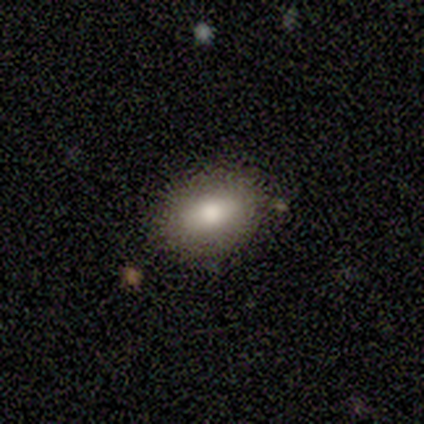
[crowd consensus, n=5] This is clearly a smooth galaxy (80%). How rounded: clearly in between (100%). Merging: clearly none (80%).